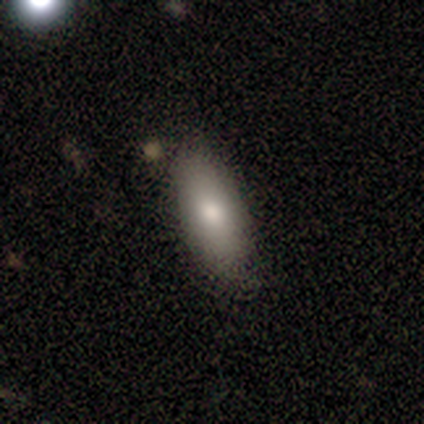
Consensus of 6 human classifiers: A smooth galaxy with no disk features (67%) that is in between round and cigar-shaped (75%). Merging: none (80%).